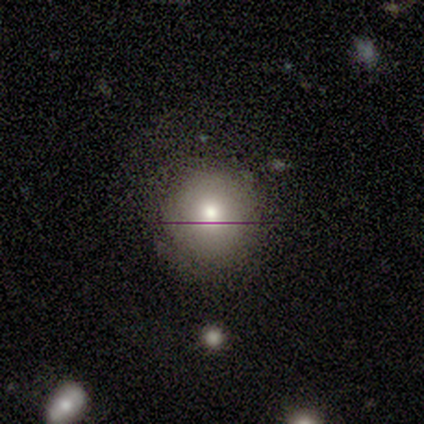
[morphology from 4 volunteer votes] A smooth galaxy with no disk features (100%) that is round (75%).

Vote fractions:
- Smooth or featured? smooth: 100% / featured or disk: 0% / star or artifact: 0%
- How rounded? round: 75% / cigar-shaped: 25% / in between: 0%
- Merging? none: 75% / minor disturbance: 25% / major disturbance: 0% / merger: 0%